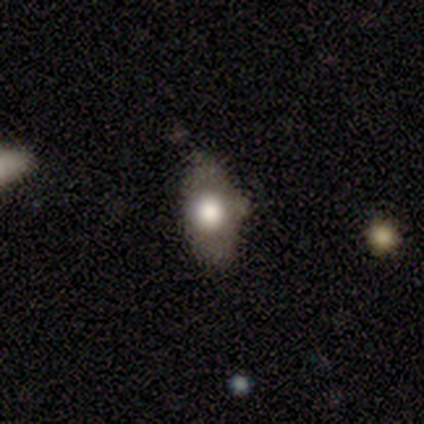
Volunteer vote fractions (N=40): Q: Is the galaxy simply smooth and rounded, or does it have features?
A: smooth — 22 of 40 (55%).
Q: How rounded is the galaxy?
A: in between — 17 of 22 (77%).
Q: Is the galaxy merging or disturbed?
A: none — 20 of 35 (57%).